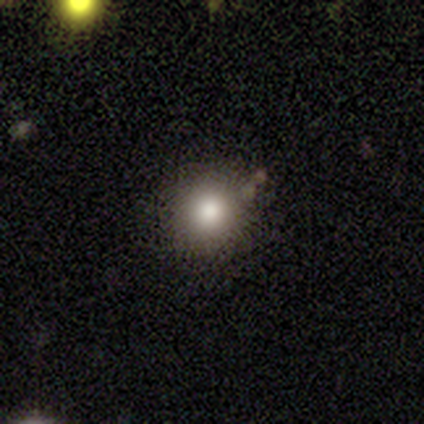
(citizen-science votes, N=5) This is clearly a smooth galaxy (100%). How rounded: clearly round (100%). Merging: clearly none (100%).